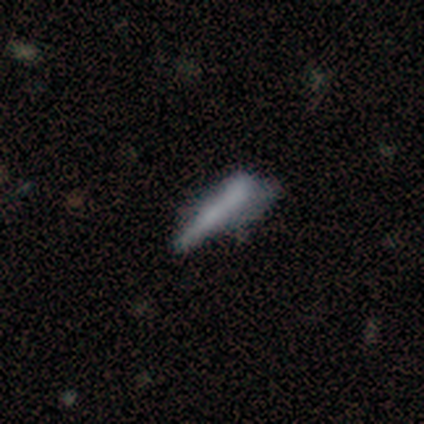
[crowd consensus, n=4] Morphology: type=smooth (75%); roundness=cigar-shaped (100%); merging=major disturbance (50%).